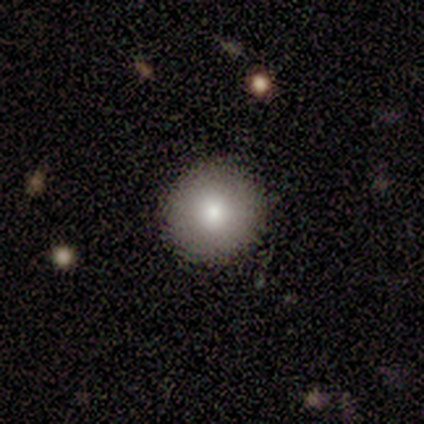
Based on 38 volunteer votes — Overall: smooth (92%). How rounded: round (100%). Merging: none (89%).